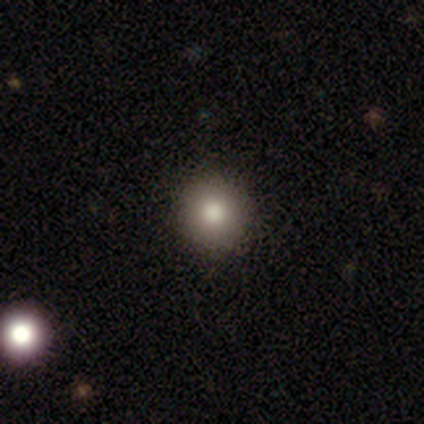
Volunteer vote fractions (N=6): Smooth or featured?
  - smooth: 83% *
  - featured or disk: 17%
  - star or artifact: 0%
How rounded?
  - round: 100% *
  - in between: 0%
  - cigar-shaped: 0%
Merging?
  - none: 100% *
  - minor disturbance: 0%
  - major disturbance: 0%
  - merger: 0%